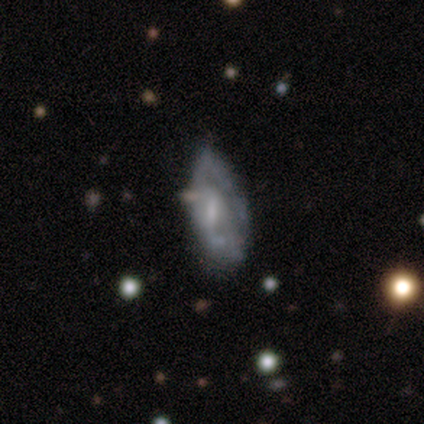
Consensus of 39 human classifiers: Smooth or featured?
  - featured or disk: 62% *
  - smooth: 28%
  - star or artifact: 10%
Edge-on disk?
  - no: 96% *
  - yes: 4%
Bar?
  - weak: 48% *
  - no: 39%
  - strong: 13%
Spiral arms?
  - yes: 52% *
  - no: 48%
Spiral winding?
  - tight: 50% *
  - medium: 25%
  - loose: 25%
Spiral arm count?
  - can't tell: 42% *
  - 2: 33%
  - 1: 17%
  - 3: 8%
  - 4: 0%
  - more than 4: 0%
Bulge size?
  - small: 52% *
  - none: 26%
  - moderate: 22%
  - dominant: 0%
  - large: 0%
Merging?
  - minor disturbance: 37% *
  - none: 29%
  - major disturbance: 23%
  - merger: 11%